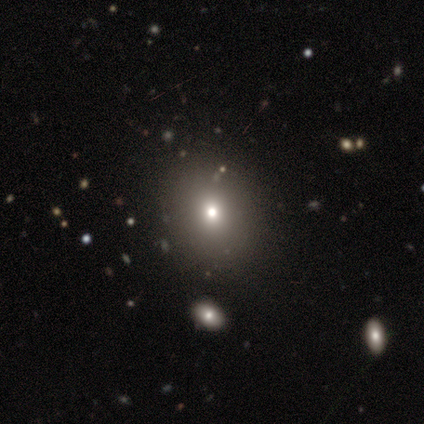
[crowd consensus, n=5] Overall: smooth (80%). How rounded: round (50%, tied with in between). Merging: none (75%).